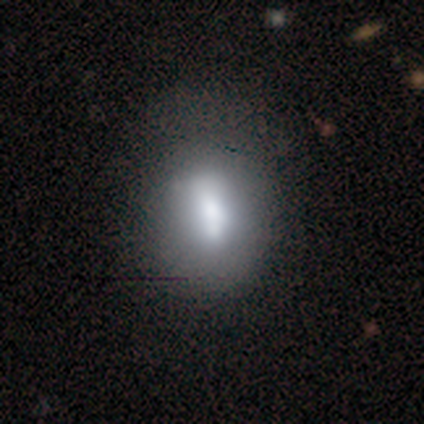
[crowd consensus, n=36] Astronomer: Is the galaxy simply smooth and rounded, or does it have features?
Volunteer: smooth — 67%.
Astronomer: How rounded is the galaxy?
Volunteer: in between — 54% (runner-up: round, 29%).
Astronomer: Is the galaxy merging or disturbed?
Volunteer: none — 44%.